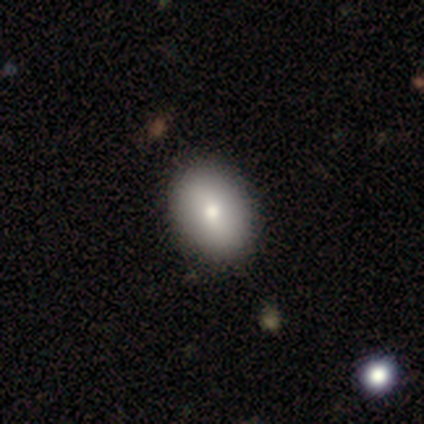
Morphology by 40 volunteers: Overall: smooth (80%). How rounded: in between (91%). Merging: none (76%).